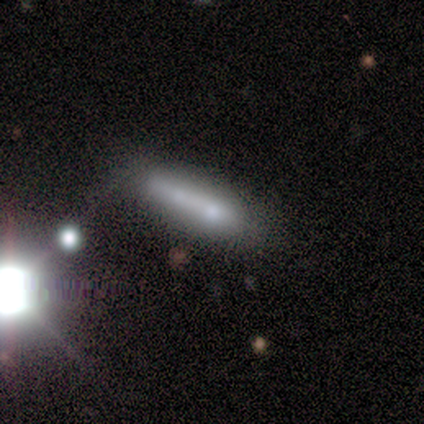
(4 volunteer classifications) Smooth or featured: smooth — 50% (featured or disk — 25%)
How rounded: in between — 50% (tied with cigar-shaped — 50%)
Merging: none — 33% (tied with minor disturbance — 33%; major disturbance — 33%)